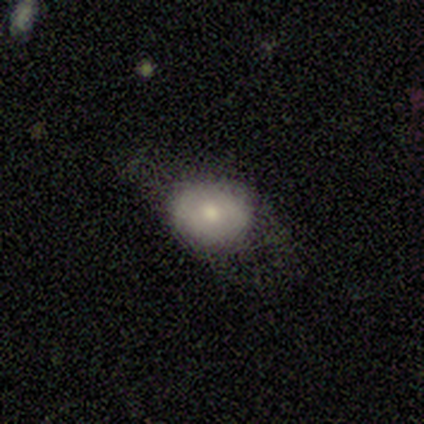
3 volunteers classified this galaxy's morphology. This appears to be a smooth galaxy with no disk features (100%) that is in between round and cigar-shaped (67%). Merging: major disturbance (67%).